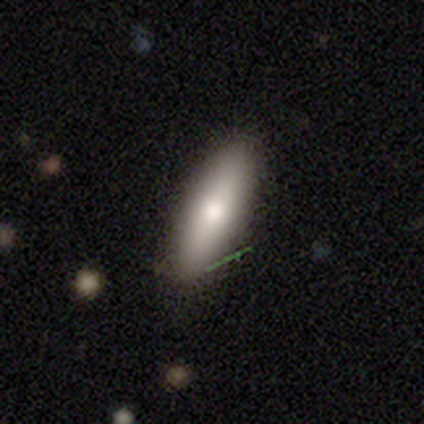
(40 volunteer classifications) Smooth or featured: smooth — 62% (featured or disk — 35%)
How rounded: in between — 52% (cigar-shaped — 48%)
Merging: none — 79% (minor disturbance — 18%)